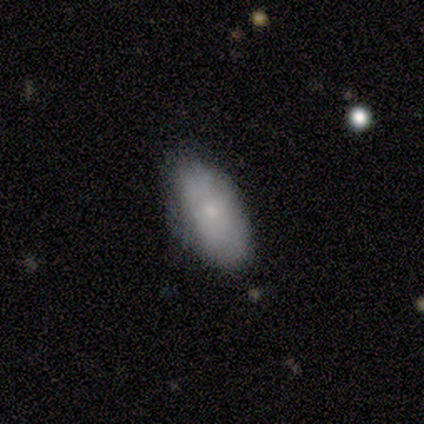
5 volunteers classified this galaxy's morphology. Smooth or featured? 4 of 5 (80%) said smooth. How rounded? 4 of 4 (100%) said in between. Merging? 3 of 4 (75%) said minor disturbance.